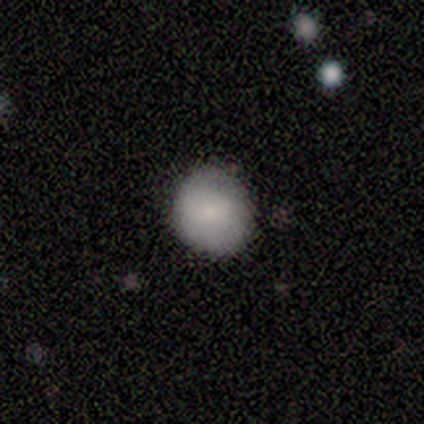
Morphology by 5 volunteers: This appears to be a smooth galaxy with no disk features (100%) that is round (80%). Merging: none (80%).